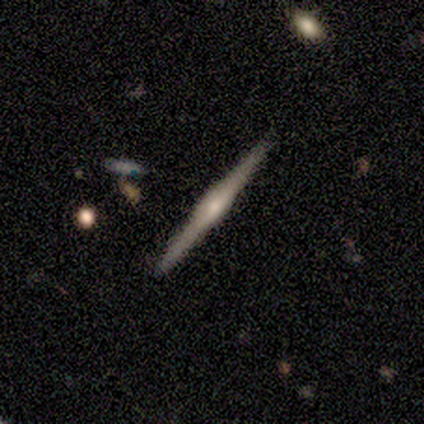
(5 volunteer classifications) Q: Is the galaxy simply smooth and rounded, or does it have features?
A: featured or disk — 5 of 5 (100%).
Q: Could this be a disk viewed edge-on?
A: yes — 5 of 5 (100%).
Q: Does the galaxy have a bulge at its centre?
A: rounded — 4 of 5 (80%).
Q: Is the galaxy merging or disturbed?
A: none — 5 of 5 (100%).